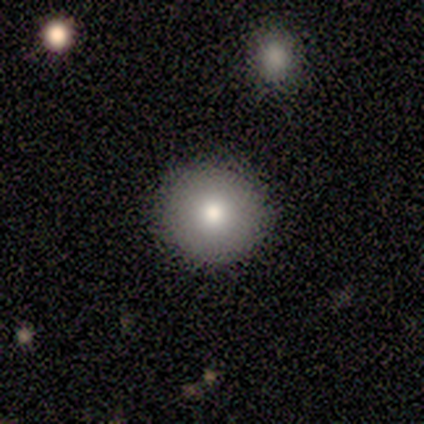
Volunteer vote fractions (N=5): Smooth or featured? smooth (80%)
How rounded? round (100%)
Merging? none (100%)